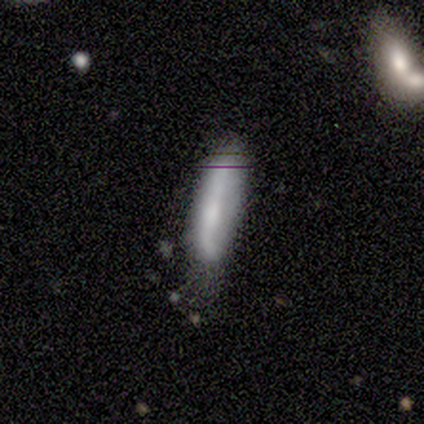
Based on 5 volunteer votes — Smooth or featured? 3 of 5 (60%) said smooth. How rounded? 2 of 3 (67%) said in between. Merging? 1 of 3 (33%, tied with minor disturbance and major disturbance) said none.